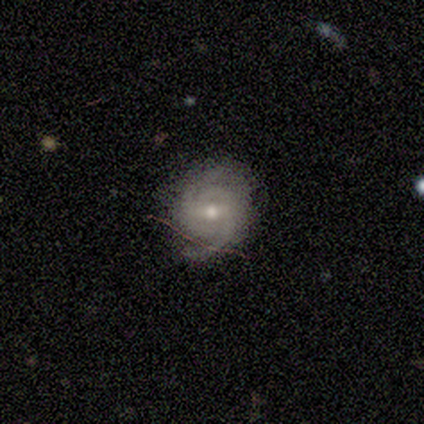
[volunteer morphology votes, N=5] smooth_or_featured: featured or disk (p=1.00)
disk_edge_on: no (p=1.00)
bar: weak (p=0.60) [alt: no p=0.40]
has_spiral_arms: yes (p=1.00)
spiral_winding: tight (p=0.60) [alt: medium p=0.40]
spiral_arm_count: 2 (p=0.40) [tied with: can't tell p=0.40]
bulge_size: moderate (p=0.80) [alt: small p=0.20]
merging: none (p=0.60) [alt: minor disturbance p=0.40]